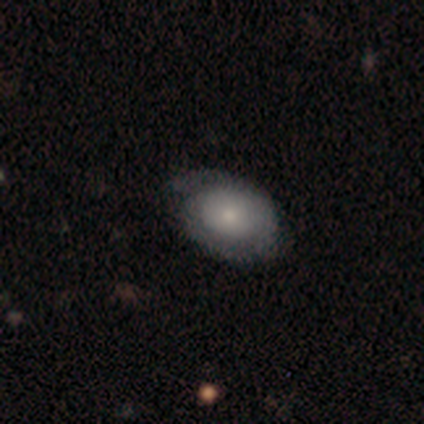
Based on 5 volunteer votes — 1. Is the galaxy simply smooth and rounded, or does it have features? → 80% smooth, 20% featured or disk, 0% star or artifact.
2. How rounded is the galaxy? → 100% in between, 0% round, 0% cigar-shaped.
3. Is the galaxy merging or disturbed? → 60% none, 40% minor disturbance, 0% major disturbance, 0% merger.